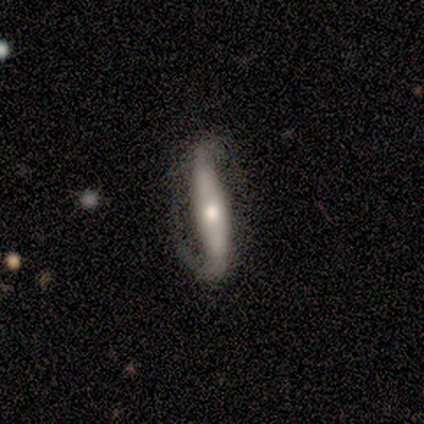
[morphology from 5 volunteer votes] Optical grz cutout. It shows a featured or disk galaxy (80%) viewed edge-on (50%, tied with no) with a rounded central bulge (100%). Merging: none (80%).